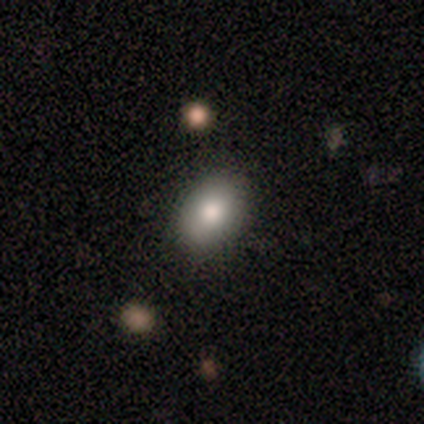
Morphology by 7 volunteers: A smooth galaxy with no disk features (71%) that is in between round and cigar-shaped (100%). Merging: none (100%).